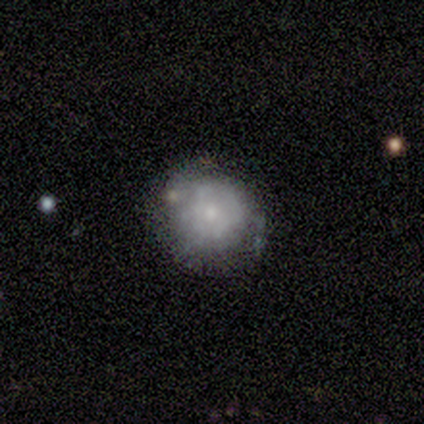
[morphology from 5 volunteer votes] Smooth or featured: smooth — 60% (featured or disk — 40%)
How rounded: round — 100%
Merging: none — 80% (minor disturbance — 20%)